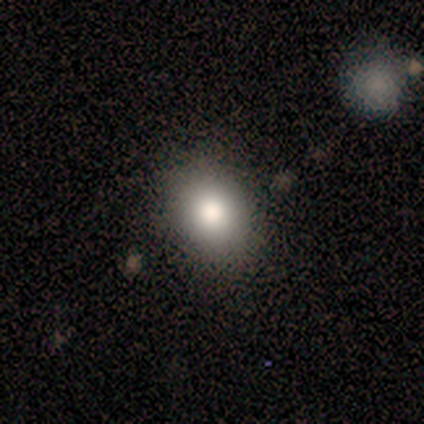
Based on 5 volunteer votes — Smooth or featured? smooth (80%)
How rounded? in between (100%)
Merging? none (100%)